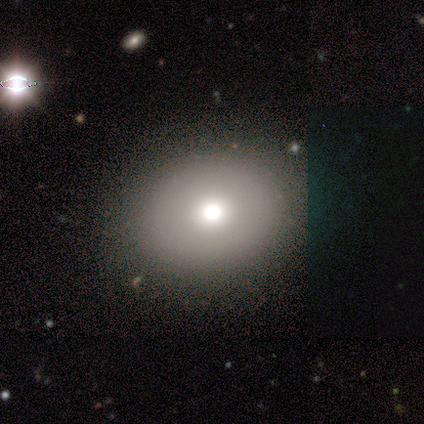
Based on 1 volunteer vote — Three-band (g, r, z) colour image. It shows a smooth galaxy with no disk features (100%) that is round (100%). Merging: minor disturbance (100%).